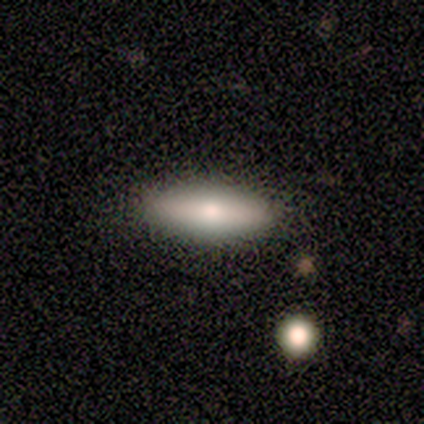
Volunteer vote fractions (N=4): Smooth or featured? 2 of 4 (50%) said smooth. How rounded? 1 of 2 (50%, tied with cigar-shaped) said in between. Merging? 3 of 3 (100%) said none.